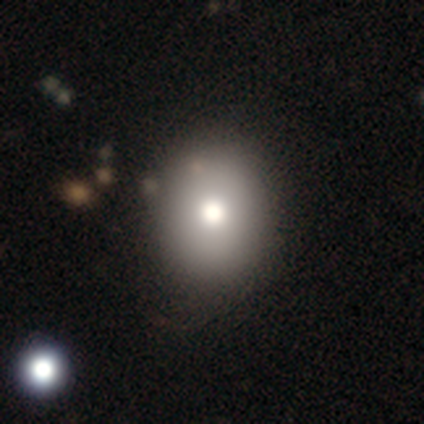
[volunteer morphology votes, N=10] Smooth or featured?
  - smooth: 60% *
  - featured or disk: 20%
  - star or artifact: 20%
How rounded?
  - round: 67% *
  - in between: 33%
  - cigar-shaped: 0%
Merging?
  - none: 75% *
  - minor disturbance: 25%
  - major disturbance: 0%
  - merger: 0%